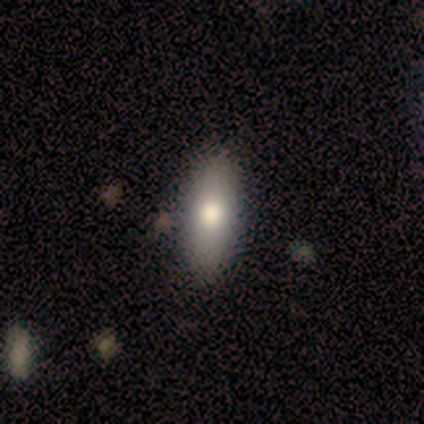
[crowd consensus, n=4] Smooth or featured?
  - smooth: 100% *
  - featured or disk: 0%
  - star or artifact: 0%
How rounded?
  - in between: 100% *
  - round: 0%
  - cigar-shaped: 0%
Merging?
  - none: 100% *
  - minor disturbance: 0%
  - major disturbance: 0%
  - merger: 0%